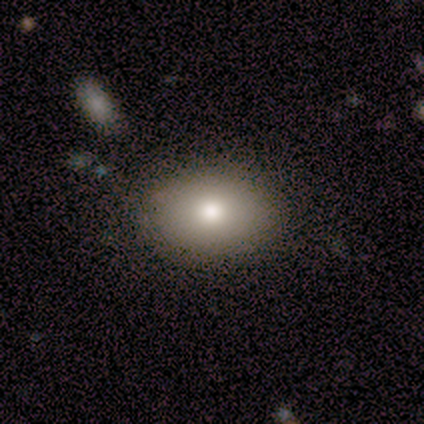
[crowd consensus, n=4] Smooth or featured? 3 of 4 (75%) said smooth. How rounded? 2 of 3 (67%) said in between. Merging? 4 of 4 (100%) said none.